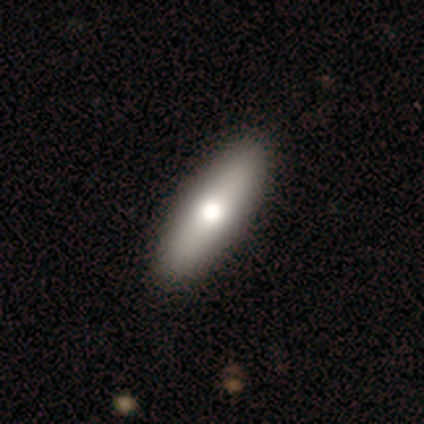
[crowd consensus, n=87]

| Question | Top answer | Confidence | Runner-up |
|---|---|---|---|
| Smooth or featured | smooth | 60% | featured or disk (37%) |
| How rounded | cigar-shaped | 65% | in between (33%) |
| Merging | none | 93% | minor disturbance (7%) |